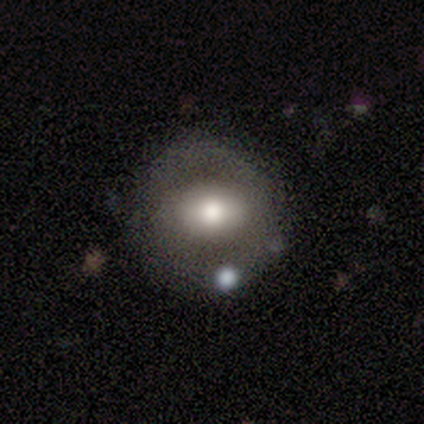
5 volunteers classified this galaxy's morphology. Smooth or featured? 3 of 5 (60%) said featured or disk. Edge-on disk? 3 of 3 (100%) said no. Bar? 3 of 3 (100%) said no. Spiral arms? 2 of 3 (67%) said yes. Spiral winding? 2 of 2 (100%) said medium. Spiral arm count? 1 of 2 (50%, tied with 3) said 2. Bulge size? 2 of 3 (67%) said moderate. Merging? 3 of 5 (60%) said none.